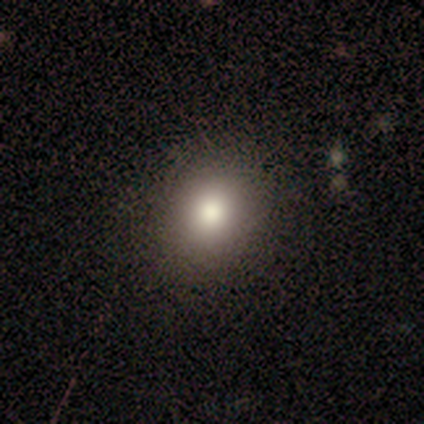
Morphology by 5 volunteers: type=smooth (100%); roundness=round (80%); merging=none (100%).